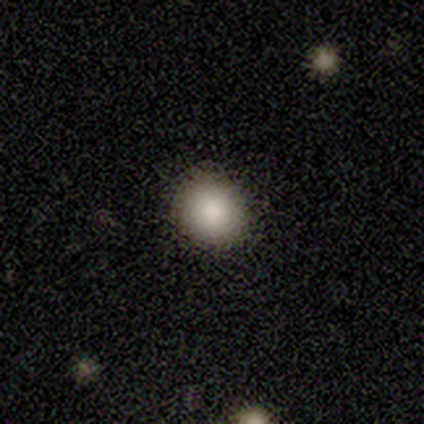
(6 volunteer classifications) Overall: smooth (83%). How rounded: round (80%). Merging: none (80%).